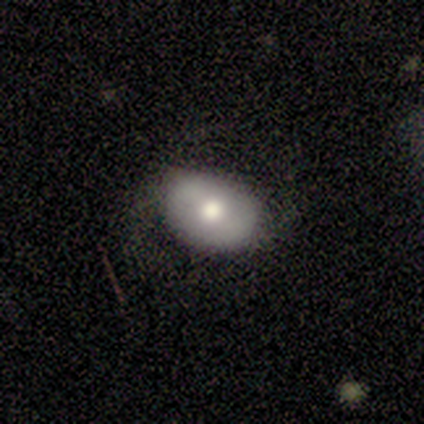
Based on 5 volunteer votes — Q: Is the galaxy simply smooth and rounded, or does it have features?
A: smooth — 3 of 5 (60%).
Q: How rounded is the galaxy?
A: in between — 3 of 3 (100%).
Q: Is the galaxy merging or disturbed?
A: minor disturbance — 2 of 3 (67%).